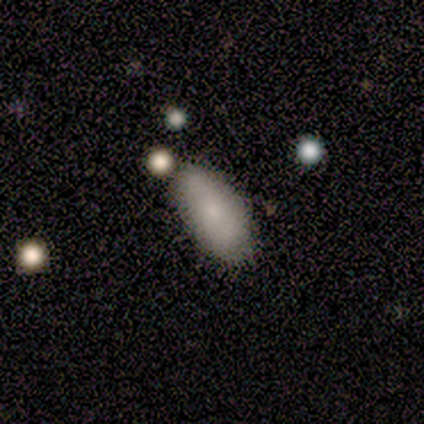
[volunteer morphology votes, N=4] Q: Smooth or featured?
A: smooth (75%); runner-up: star or artifact (25%)
Q: How rounded?
A: in between (100%)
Q: Merging?
A: none (100%)